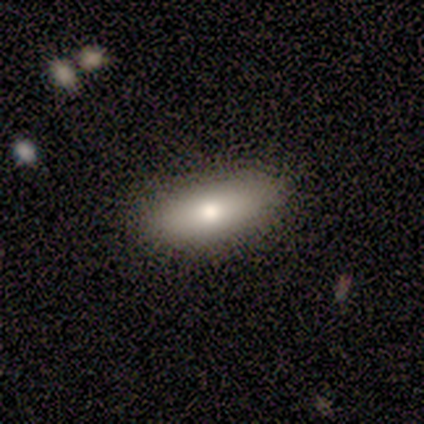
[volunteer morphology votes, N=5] Smooth or featured? smooth (100%)
How rounded? in between (60%)
Merging? none (100%)